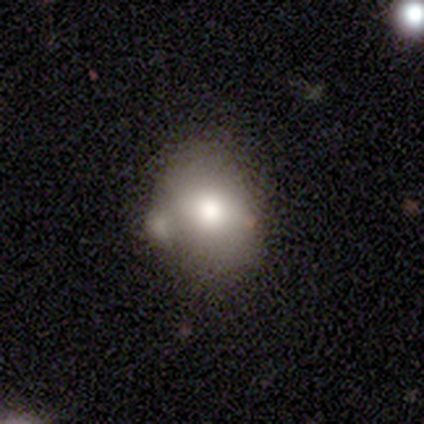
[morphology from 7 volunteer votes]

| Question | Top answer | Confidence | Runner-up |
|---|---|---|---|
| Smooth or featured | smooth | 86% | star or artifact (14%) |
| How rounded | round | 50% | tied: in between (50%) |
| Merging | merger | 50% | none (33%) |